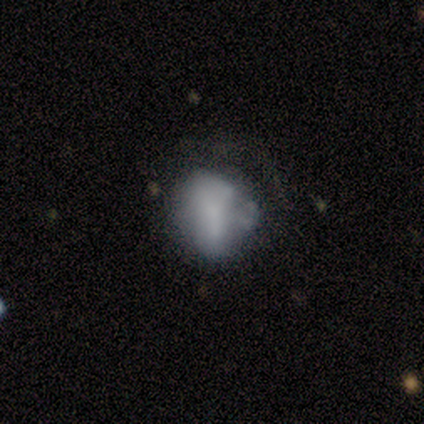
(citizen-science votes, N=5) Volunteers were most divided on "bulge size" (3-way tie): moderate: 33%, small: 33%, none: 33%, dominant: 0%, large: 0%; "merging" (2-way tie): none: 40%, minor disturbance: 40%, major disturbance: 20%, merger: 0%. More confident: edge-on disk — no (100%); bar — weak (67%); spiral arms — no (67%); smooth or featured — featured or disk (60%).